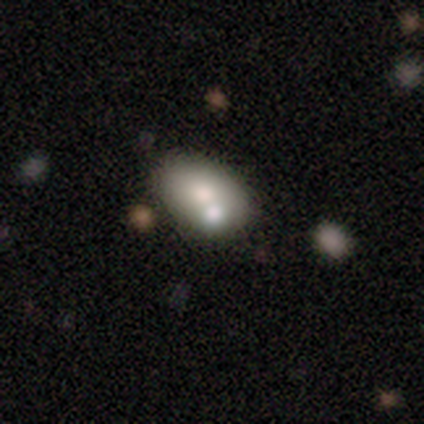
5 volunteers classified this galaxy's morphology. Smooth or featured?
  - smooth: 80% *
  - star or artifact: 20%
  - featured or disk: 0%
How rounded?
  - in between: 100% *
  - round: 0%
  - cigar-shaped: 0%
Merging?
  - merger: 100% *
  - none: 0%
  - minor disturbance: 0%
  - major disturbance: 0%